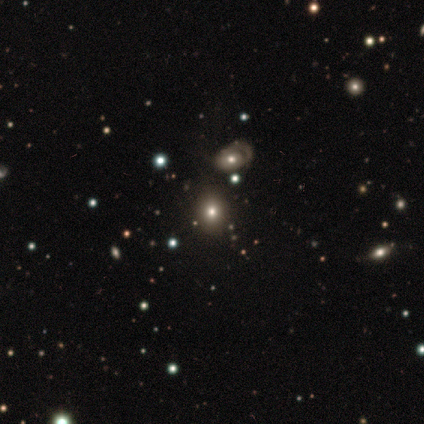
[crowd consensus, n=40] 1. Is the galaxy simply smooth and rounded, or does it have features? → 52% smooth, 38% star or artifact, 10% featured or disk.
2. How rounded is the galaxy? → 52% round, 48% in between, 0% cigar-shaped.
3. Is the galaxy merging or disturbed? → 60% none, 20% minor disturbance, 16% major disturbance, 4% merger.